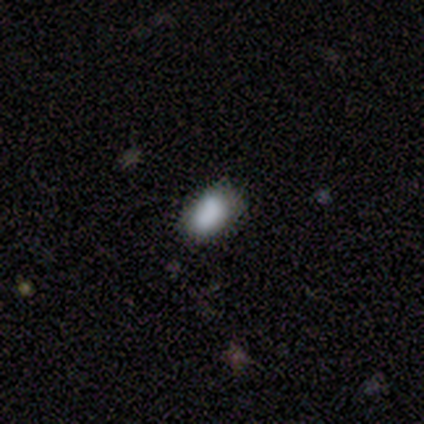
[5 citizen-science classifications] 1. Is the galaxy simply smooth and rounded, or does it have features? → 60% smooth, 20% featured or disk, 20% star or artifact.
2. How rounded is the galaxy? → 100% in between, 0% round, 0% cigar-shaped.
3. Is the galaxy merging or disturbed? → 75% none, 25% minor disturbance, 0% major disturbance, 0% merger.